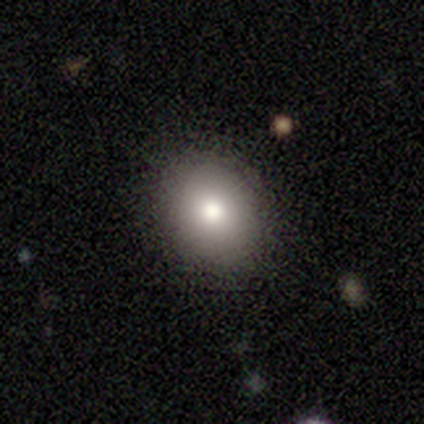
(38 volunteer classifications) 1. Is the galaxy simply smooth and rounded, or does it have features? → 92% smooth, 5% featured or disk, 3% star or artifact.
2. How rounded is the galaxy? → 51% round, 49% in between, 0% cigar-shaped.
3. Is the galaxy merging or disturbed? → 92% none, 5% minor disturbance, 3% merger, 0% major disturbance.